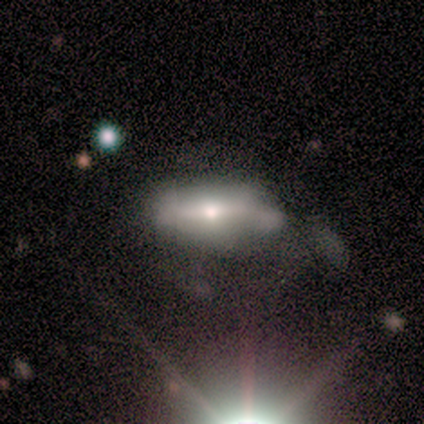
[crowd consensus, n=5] smooth-or-featured: featured or disk: 60% | star or artifact: 40% | smooth: 0%
  disk-edge-on: yes: 67% | no: 33%
    edge-on-bulge: none: 50% (tied) | rounded: 50% (tied) | boxy: 0%
  merging: major disturbance: 67% | minor disturbance: 33% | none: 0% | merger: 0%